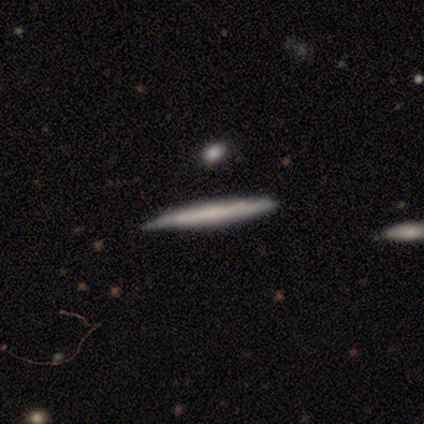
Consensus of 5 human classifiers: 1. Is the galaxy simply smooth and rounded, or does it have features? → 60% featured or disk, 40% smooth, 0% star or artifact.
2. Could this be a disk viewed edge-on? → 100% yes, 0% no.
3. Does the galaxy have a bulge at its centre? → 67% none, 33% rounded, 0% boxy.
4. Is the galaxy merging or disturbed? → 80% none, 20% minor disturbance, 0% major disturbance, 0% merger.